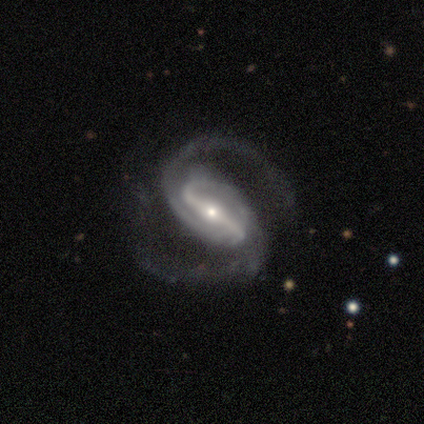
Smooth or featured? featured or disk (92%)
Edge-on disk? no (95%)
Bar? strong (80%)
Spiral arms? yes (94%)
Spiral winding? medium (55%)
Spiral arm count? 2 (97%)
Bulge size? small (66%)
Merging? none (78%)